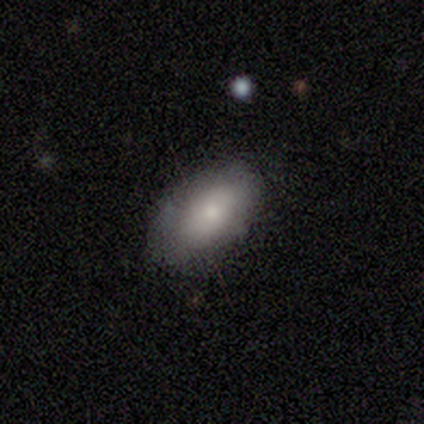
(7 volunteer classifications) smooth-or-featured: smooth: 100% | featured or disk: 0% | star or artifact: 0%
  how-rounded: in between: 100% | round: 0% | cigar-shaped: 0%
  merging: none: 86% | minor disturbance: 14% | major disturbance: 0% | merger: 0%